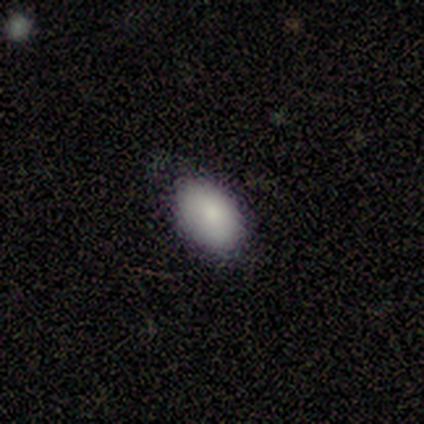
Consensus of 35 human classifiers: Morphology: type=smooth (86%); roundness=in between (97%); merging=none (76%).